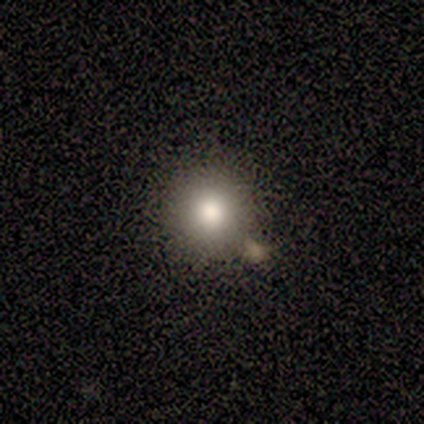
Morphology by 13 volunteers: A smooth galaxy with no disk features (85%) that is round (100%).

Vote fractions:
- Smooth or featured? smooth: 85% / star or artifact: 15% / featured or disk: 0%
- How rounded? round: 100% / in between: 0% / cigar-shaped: 0%
- Merging? none: 91% / merger: 9% / minor disturbance: 0% / major disturbance: 0%